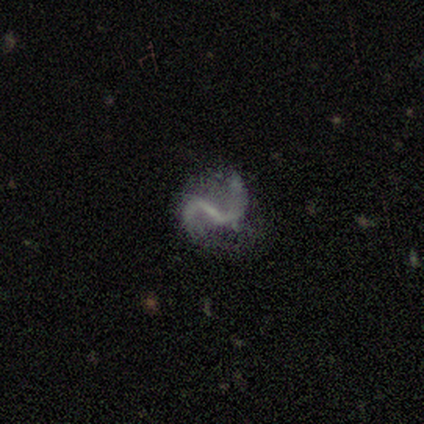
Smooth or featured? featured or disk (80%)
Edge-on disk? no (100%)
Bar? strong (75%)
Spiral arms? yes (75%)
Spiral winding? tight (33%, tied with medium and loose)
Spiral arm count? 2 (100%)
Bulge size? small (50%, tied with none)
Merging? none (50%)